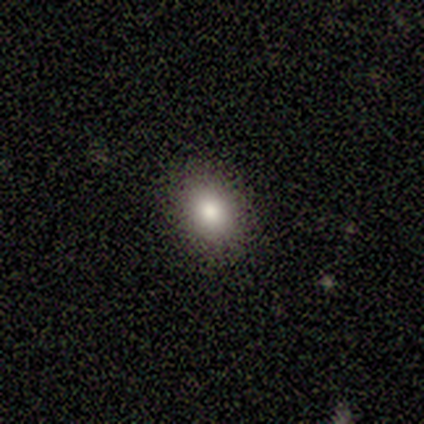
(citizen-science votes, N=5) Smooth or featured? 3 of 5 (60%) said smooth. How rounded? 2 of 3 (67%) said round. Merging? 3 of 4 (75%) said none.